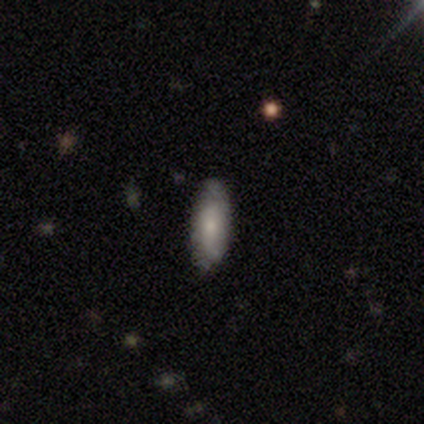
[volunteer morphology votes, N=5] Smooth or featured?
  - smooth: 80% *
  - featured or disk: 20%
  - star or artifact: 0%
How rounded?
  - in between: 50% * (tied)
  - cigar-shaped: 50% * (tied)
  - round: 0%
Merging?
  - none: 100% *
  - minor disturbance: 0%
  - major disturbance: 0%
  - merger: 0%